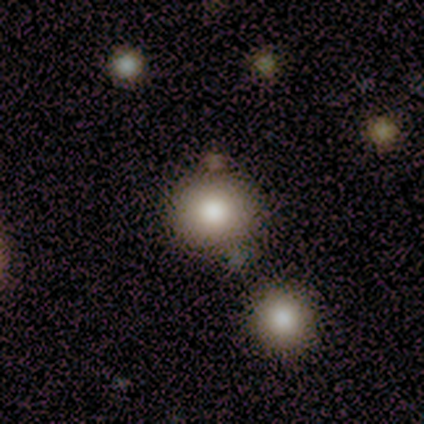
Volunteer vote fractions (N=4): This is likely a smooth galaxy (75%). How rounded: clearly round (100%). Merging: clearly none (100%).